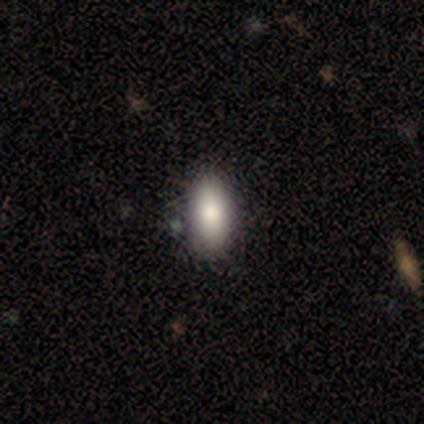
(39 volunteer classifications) Q: Smooth or featured?
A: smooth (82%); runner-up: featured or disk (10%)
Q: How rounded?
A: in between (84%); runner-up: cigar-shaped (12%)
Q: Merging?
A: none (64%); runner-up: minor disturbance (11%)